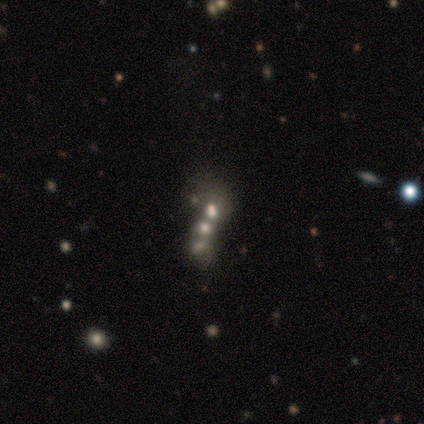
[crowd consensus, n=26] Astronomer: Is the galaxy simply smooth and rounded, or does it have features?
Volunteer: featured or disk — 54%.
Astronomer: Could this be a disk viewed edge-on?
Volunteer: no — 93%.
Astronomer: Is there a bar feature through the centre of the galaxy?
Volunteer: no — 92%.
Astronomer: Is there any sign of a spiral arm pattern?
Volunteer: no — 100%.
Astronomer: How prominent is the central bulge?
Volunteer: moderate — 46% (runner-up: large, 31%).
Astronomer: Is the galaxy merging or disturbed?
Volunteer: merger — 70%.